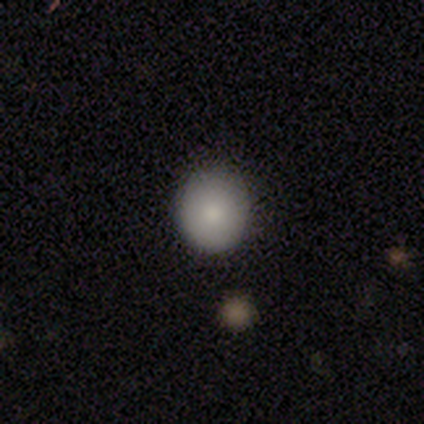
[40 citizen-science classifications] Volunteers were most divided on "merging": none: 78%, minor disturbance: 19%, merger: 3%, major disturbance: 0%. More confident: how rounded — round (85%); smooth or featured — smooth (85%).